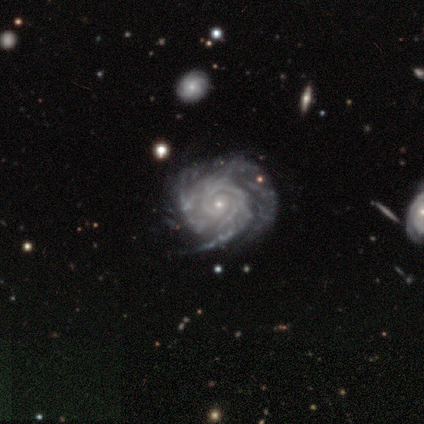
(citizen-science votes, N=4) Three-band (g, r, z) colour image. It shows a featured or disk galaxy (100%) with no bar (75%), tight (50%, tied with medium) spiral arms (100%) and a small central bulge (75%). Merging: none (75%).